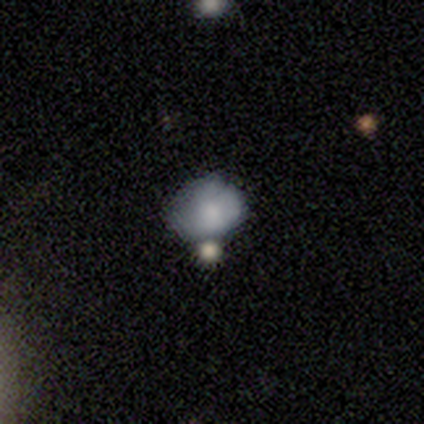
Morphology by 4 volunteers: Overall: featured or disk (75%). Edge-on disk: no (67%; yes 33%). Bar: no (100%). Spiral arms: no (100%). Bulge size: moderate (50%, tied with small). Merging: minor disturbance (50%; none 25%).